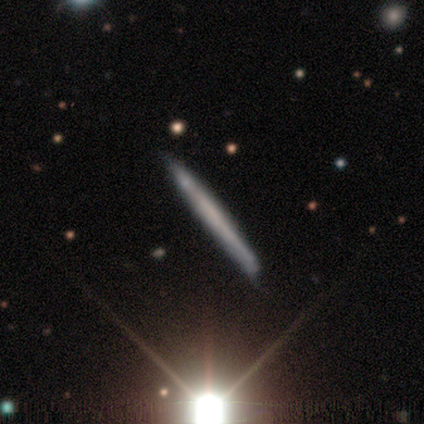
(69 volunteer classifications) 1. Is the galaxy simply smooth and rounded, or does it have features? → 46% smooth, 43% featured or disk, 10% star or artifact.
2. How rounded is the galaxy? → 100% cigar-shaped, 0% round, 0% in between.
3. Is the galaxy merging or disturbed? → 71% none, 27% minor disturbance, 2% merger, 0% major disturbance.